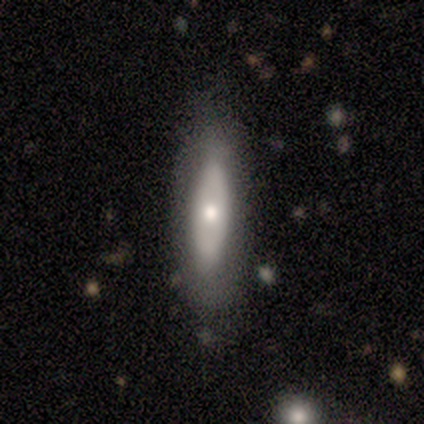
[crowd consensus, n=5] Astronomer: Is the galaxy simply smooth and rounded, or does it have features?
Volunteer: featured or disk — 80%.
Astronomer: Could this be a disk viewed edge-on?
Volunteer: no — 75%.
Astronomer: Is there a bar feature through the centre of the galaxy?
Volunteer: no — 100%.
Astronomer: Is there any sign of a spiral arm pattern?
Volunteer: no — 100%.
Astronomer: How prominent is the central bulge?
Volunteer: moderate — 100%.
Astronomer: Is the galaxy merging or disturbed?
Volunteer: none — 60%.